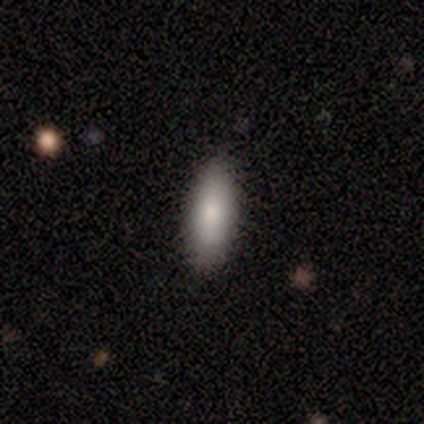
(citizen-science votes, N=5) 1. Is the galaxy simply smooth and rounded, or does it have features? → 100% smooth, 0% featured or disk, 0% star or artifact.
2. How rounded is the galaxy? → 80% in between, 20% cigar-shaped, 0% round.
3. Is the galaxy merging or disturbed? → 60% none, 40% minor disturbance, 0% major disturbance, 0% merger.